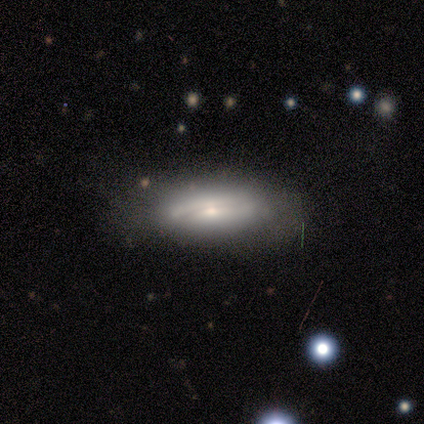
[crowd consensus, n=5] Smooth or featured: smooth — 60% (featured or disk — 40%)
How rounded: in between — 67% (cigar-shaped — 33%)
Merging: none — 80% (minor disturbance — 20%)